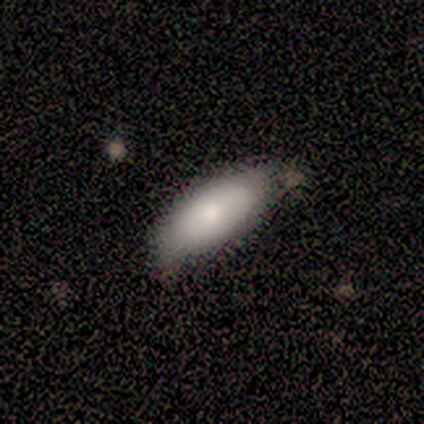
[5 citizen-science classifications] A smooth galaxy with no disk features (100%) that is in between round and cigar-shaped (100%). Merging: none (60%).